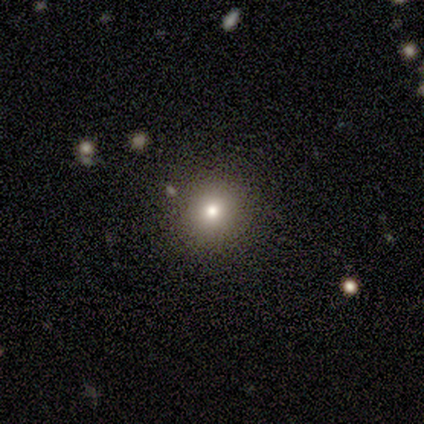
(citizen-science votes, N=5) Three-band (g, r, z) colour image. It shows a smooth galaxy with no disk features (80%) that is round (100%). Merging: none (80%).